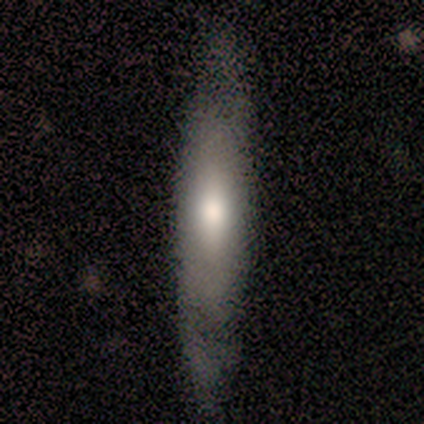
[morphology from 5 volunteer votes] A smooth galaxy with no disk features (60%) that is cigar-shaped (67%).

Vote fractions:
- Smooth or featured? smooth: 60% / featured or disk: 20% / star or artifact: 20%
- How rounded? cigar-shaped: 67% / in between: 33% / round: 0%
- Merging? none: 50% / minor disturbance: 25% / major disturbance: 25% / merger: 0%